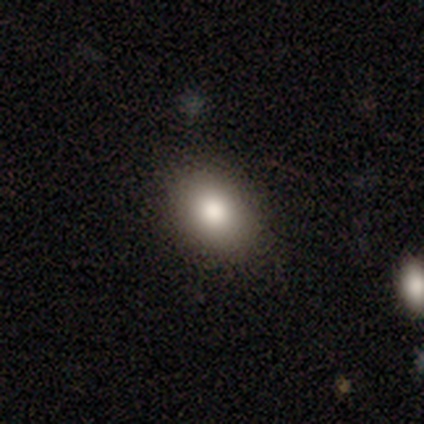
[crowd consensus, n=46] Smooth or featured? 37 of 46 (80%) said smooth. How rounded? 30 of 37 (81%) said in between. Merging? 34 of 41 (83%) said none.